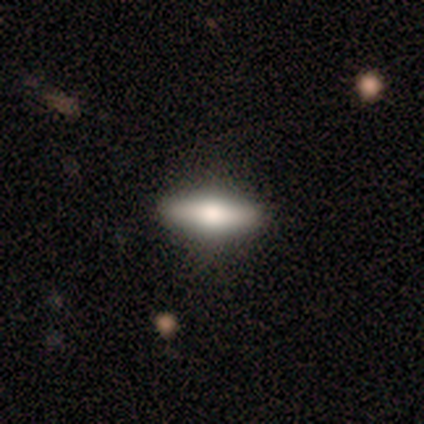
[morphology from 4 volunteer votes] This appears to be a featured or disk galaxy (75%) viewed edge-on (100%) with a rounded central bulge (100%). Merging: none (100%).